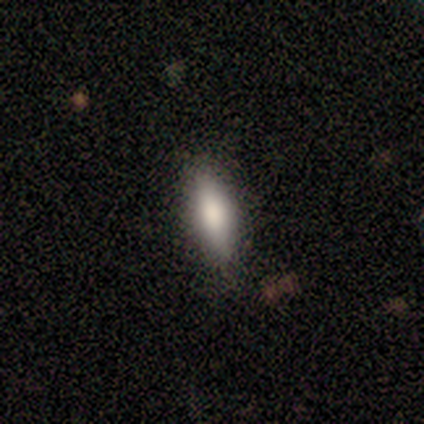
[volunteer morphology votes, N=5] A smooth galaxy with no disk features (100%) that is cigar-shaped (80%).

Vote fractions:
- Smooth or featured? smooth: 100% / featured or disk: 0% / star or artifact: 0%
- How rounded? cigar-shaped: 80% / in between: 20% / round: 0%
- Merging? none: 100% / minor disturbance: 0% / major disturbance: 0% / merger: 0%